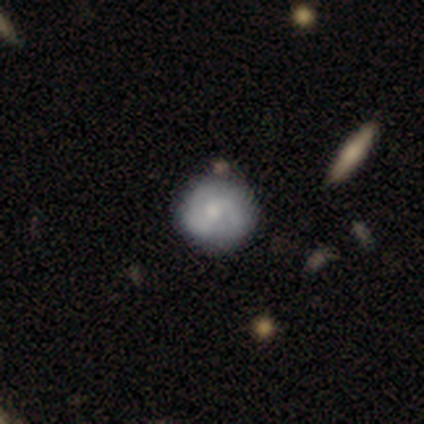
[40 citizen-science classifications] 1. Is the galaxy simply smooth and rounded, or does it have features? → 52% featured or disk, 48% smooth, 0% star or artifact.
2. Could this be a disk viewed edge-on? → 100% no, 0% yes.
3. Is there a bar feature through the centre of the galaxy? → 52% weak, 48% no, 0% strong.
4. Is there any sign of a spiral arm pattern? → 76% yes, 24% no.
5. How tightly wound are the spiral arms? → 56% medium, 38% tight, 6% loose.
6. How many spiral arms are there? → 75% 2, 12% 3, 12% can't tell, 0% 1, 0% 4, 0% more than 4.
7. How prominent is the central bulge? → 43% small, 38% moderate, 14% none, 5% large, 0% dominant.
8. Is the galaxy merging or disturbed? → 60% none, 10% minor disturbance, 8% merger, 0% major disturbance.